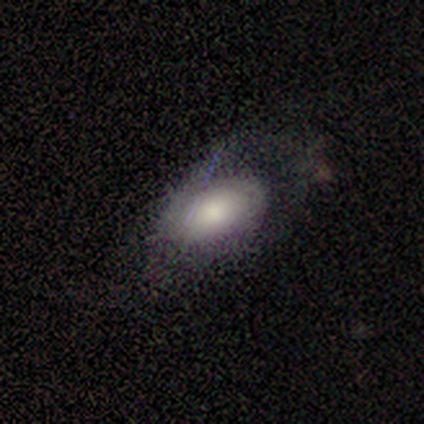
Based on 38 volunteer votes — Smooth or featured? 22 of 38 (58%) said smooth. How rounded? 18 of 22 (82%) said in between. Merging? 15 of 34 (44%) said none.